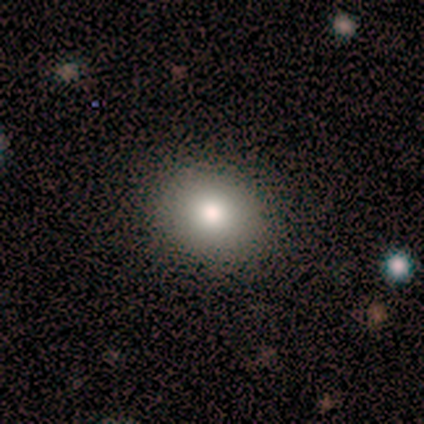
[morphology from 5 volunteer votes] Overall: smooth (80%). How rounded: round (100%). Merging: none (100%).